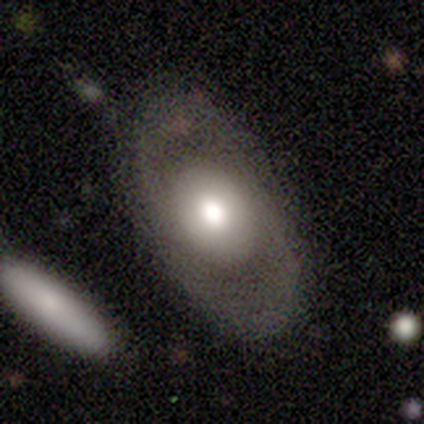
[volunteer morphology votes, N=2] Volunteers were most divided on "smooth or featured" (2-way tie): smooth: 50%, featured or disk: 50%, star or artifact: 0%. More confident: how rounded — in between (100%); merging — none (100%).